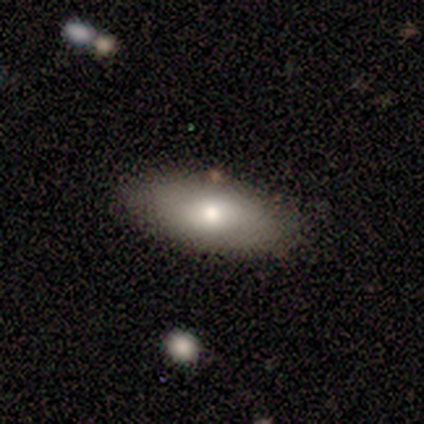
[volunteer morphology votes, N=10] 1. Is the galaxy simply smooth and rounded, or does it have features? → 50% smooth, 40% featured or disk, 10% star or artifact.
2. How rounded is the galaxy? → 100% in between, 0% round, 0% cigar-shaped.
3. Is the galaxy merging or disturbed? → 89% none, 11% merger, 0% minor disturbance, 0% major disturbance.